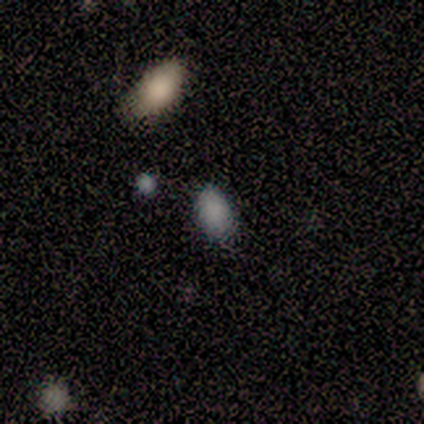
This is clearly a smooth galaxy (100%). How rounded: clearly in between (100%). Merging: clearly none (80%).